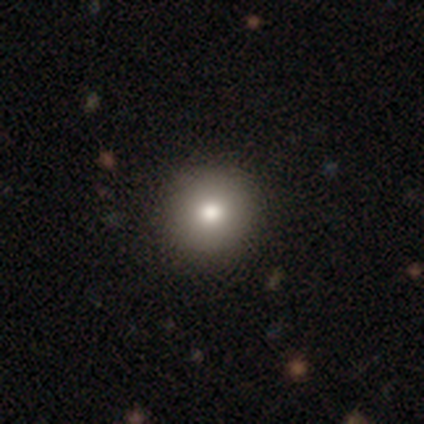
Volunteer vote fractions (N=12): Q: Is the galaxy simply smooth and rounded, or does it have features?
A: smooth — 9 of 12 (75%).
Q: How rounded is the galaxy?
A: round — 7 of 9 (78%).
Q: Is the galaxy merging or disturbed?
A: none — 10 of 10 (100%).